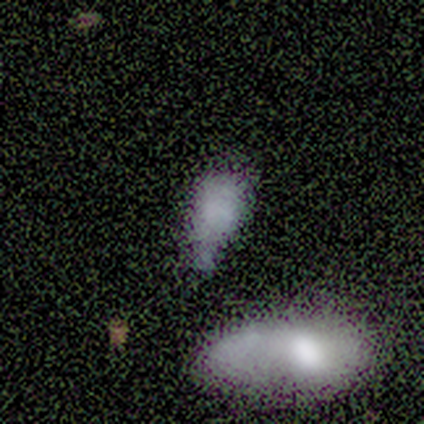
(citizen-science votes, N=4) Volunteers were most divided on "merging" (3-way tie): none: 33%, minor disturbance: 33%, major disturbance: 33%, merger: 0%. More confident: how rounded — in between (100%); smooth or featured — smooth (75%).